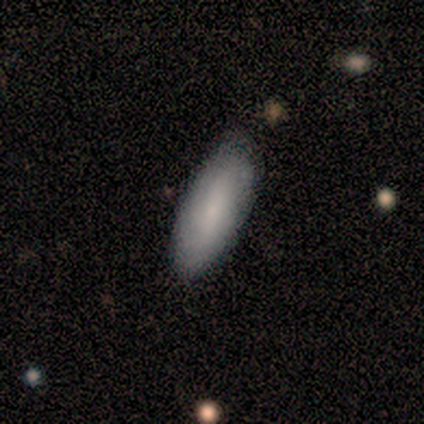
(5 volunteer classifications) Smooth or featured? smooth (80%)
How rounded? in between (100%)
Merging? minor disturbance (60%)